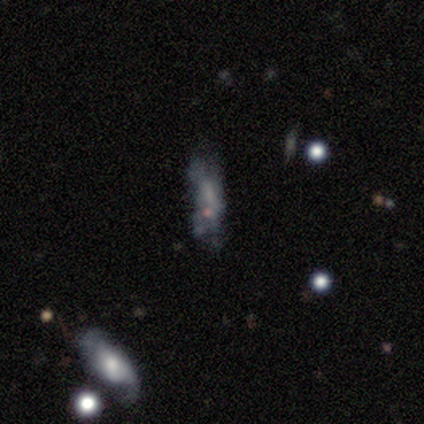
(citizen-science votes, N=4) Morphology: type=smooth (50%, tied with featured or disk); roundness=in between (100%); merging=none (50%, tied with major disturbance).